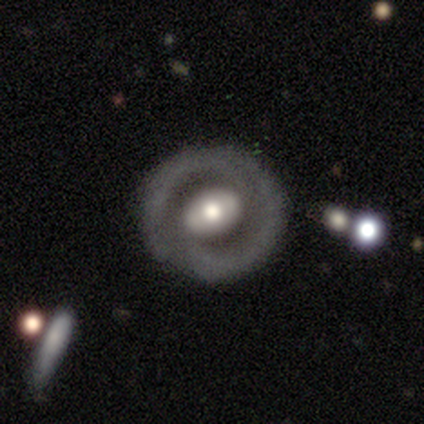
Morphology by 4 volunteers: Smooth or featured?
  - featured or disk: 75% *
  - smooth: 25%
  - star or artifact: 0%
Edge-on disk?
  - no: 100% *
  - yes: 0%
Bar?
  - strong: 33% * (tied)
  - weak: 33% * (tied)
  - no: 33% * (tied)
Spiral arms?
  - no: 67% *
  - yes: 33%
Bulge size?
  - large: 67% *
  - moderate: 33%
  - dominant: 0%
  - small: 0%
  - none: 0%
Merging?
  - none: 75% *
  - minor disturbance: 25%
  - major disturbance: 0%
  - merger: 0%